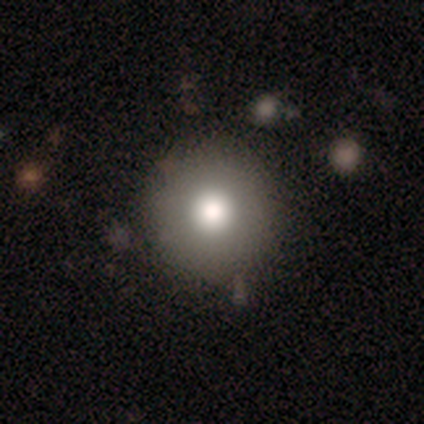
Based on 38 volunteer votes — Smooth or featured? 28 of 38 (74%) said smooth. How rounded? 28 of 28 (100%) said round. Merging? 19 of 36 (53%) said none.